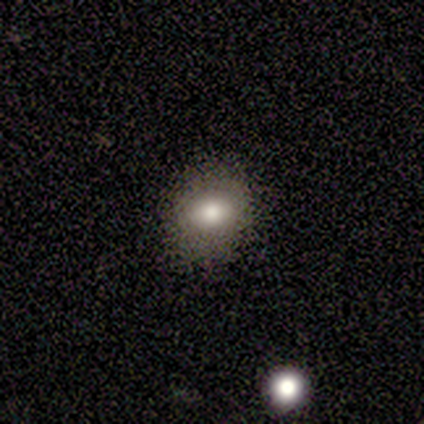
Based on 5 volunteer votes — Volunteers were most divided on "how rounded": round: 80%, in between: 20%, cigar-shaped: 0%. More confident: smooth or featured — smooth (100%); merging — none (80%).